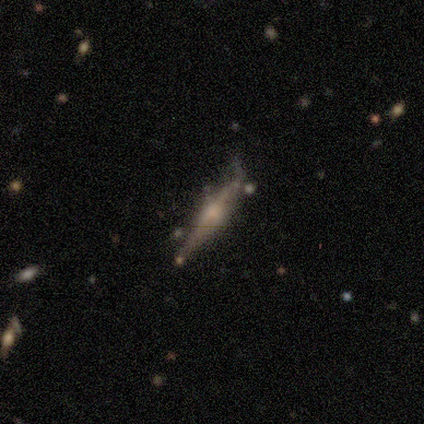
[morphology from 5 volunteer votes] smooth-or-featured: featured or disk: 80% | smooth: 20% | star or artifact: 0%
  disk-edge-on: yes: 100% | no: 0%
    edge-on-bulge: rounded: 100% | boxy: 0% | none: 0%
  merging: none: 60% | minor disturbance: 40% | major disturbance: 0% | merger: 0%